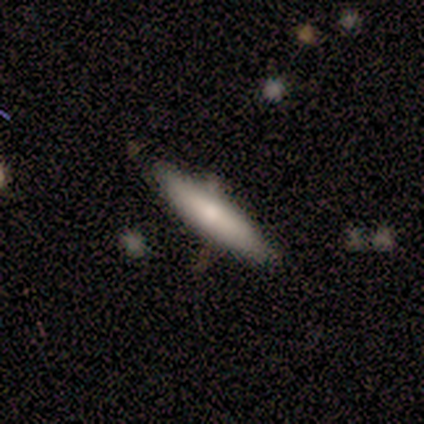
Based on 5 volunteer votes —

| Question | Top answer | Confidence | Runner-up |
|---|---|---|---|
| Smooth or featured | featured or disk | 60% | smooth (20%) |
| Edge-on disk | no | 100% | — |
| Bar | no | 67% | weak (33%) |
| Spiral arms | no | 100% | — |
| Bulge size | moderate | 100% | — |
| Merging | none | 100% | — |